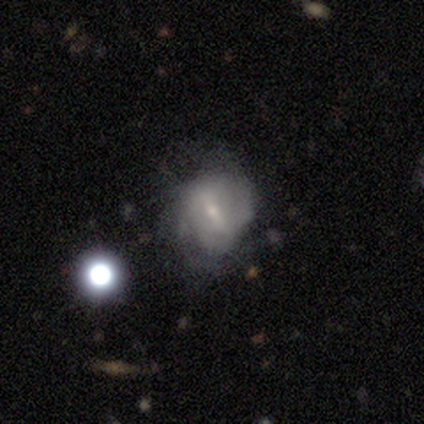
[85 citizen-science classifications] featured or disk 66%, smooth 25%, star or artifact 9%. Down the decision tree: edge-on disk — no (95%); bar — weak (53%); spiral arms — no (53%); bulge size — small (66%); merging — none (49%).